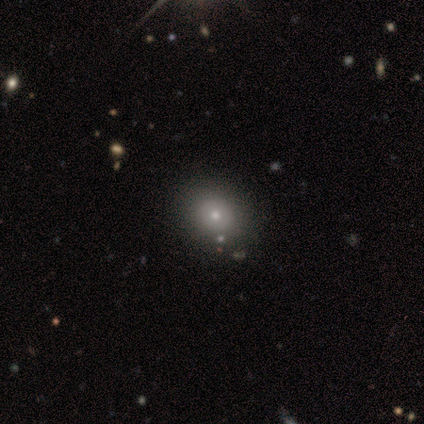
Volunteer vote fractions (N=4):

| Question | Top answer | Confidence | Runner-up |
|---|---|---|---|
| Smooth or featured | star or artifact | 75% | smooth (25%) |